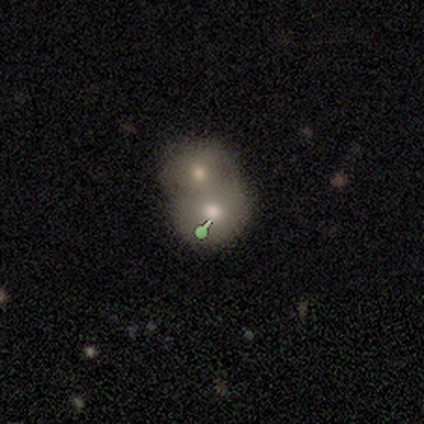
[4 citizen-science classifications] A star or artifact, not a galaxy (50%).

Vote fractions:
- Smooth or featured? star or artifact: 50% / smooth: 25% / featured or disk: 25%